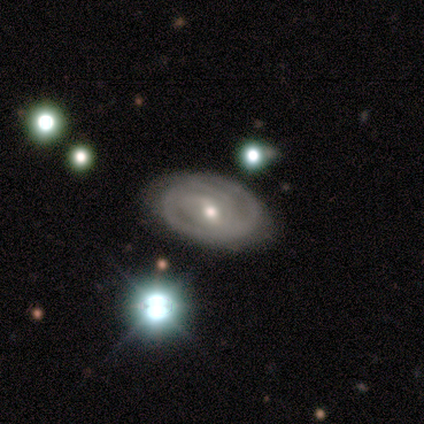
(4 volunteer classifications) Smooth or featured: featured or disk — 100%
Edge-on disk: no — 100%
Bar: weak — 50% (tied with no — 50%)
Spiral arms: yes — 100%
Spiral winding: tight — 100%
Spiral arm count: can't tell — 75% (3 — 25%)
Bulge size: small — 75% (moderate — 25%)
Merging: none — 100%